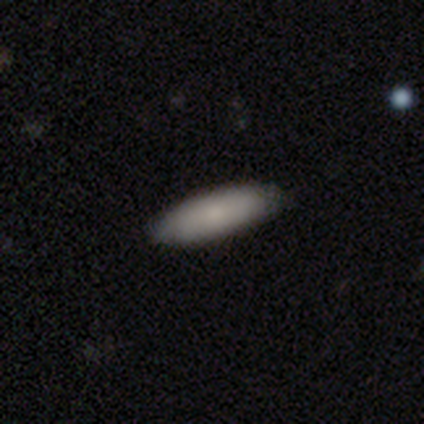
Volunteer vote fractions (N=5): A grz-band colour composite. It shows a smooth galaxy with no disk features (60%) that is cigar-shaped (67%). Merging: none (75%).